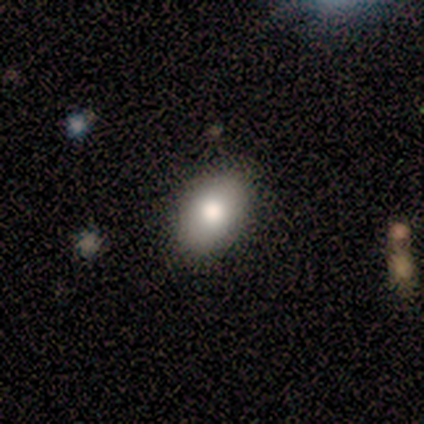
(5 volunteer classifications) smooth 80%, star or artifact 20%, featured or disk 0%. Down the decision tree: how rounded — in between (100%); merging — none (100%).